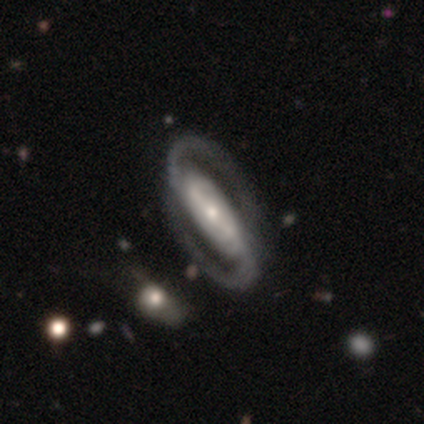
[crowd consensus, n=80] Smooth or featured? 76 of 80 (95%) said featured or disk. Edge-on disk? 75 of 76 (99%) said no. Bar? 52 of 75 (69%) said strong. Spiral arms? 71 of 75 (95%) said yes. Spiral winding? 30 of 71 (42%) said medium. Spiral arm count? 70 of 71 (99%) said 2. Bulge size? 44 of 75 (59%) said small. Merging? 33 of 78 (42%) said none.